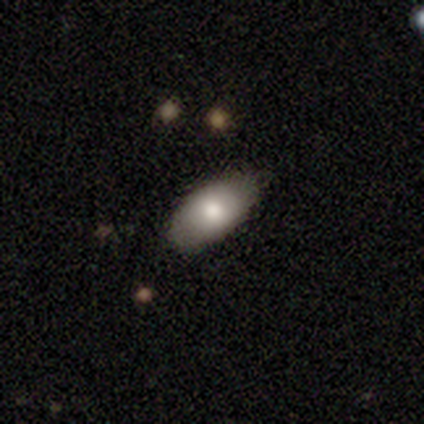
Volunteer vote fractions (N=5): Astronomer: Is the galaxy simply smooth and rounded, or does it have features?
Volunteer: smooth — 80%.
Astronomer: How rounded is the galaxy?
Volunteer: in between — 100%.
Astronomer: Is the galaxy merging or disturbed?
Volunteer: none — 75%.